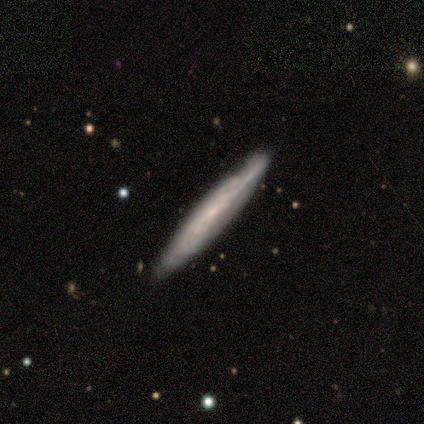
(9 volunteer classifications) A featured or disk galaxy (89%) viewed edge-on (50%, tied with no) with a rounded central bulge (75%).

Vote fractions:
- Smooth or featured? featured or disk: 89% / smooth: 11% / star or artifact: 0%
- Edge-on disk? yes: 50% (tied) / no: 50% (tied)
- Edge-on bulge? rounded: 75% / none: 25% / boxy: 0%
- Merging? none: 100% / minor disturbance: 0% / major disturbance: 0% / merger: 0%